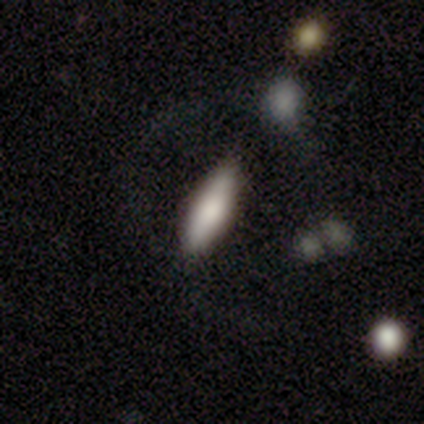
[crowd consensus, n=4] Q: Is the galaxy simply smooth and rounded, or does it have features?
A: smooth — 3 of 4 (75%).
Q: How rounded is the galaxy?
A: cigar-shaped — 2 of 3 (67%).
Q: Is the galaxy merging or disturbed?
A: none — 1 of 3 (33%, tied with minor disturbance and major disturbance).